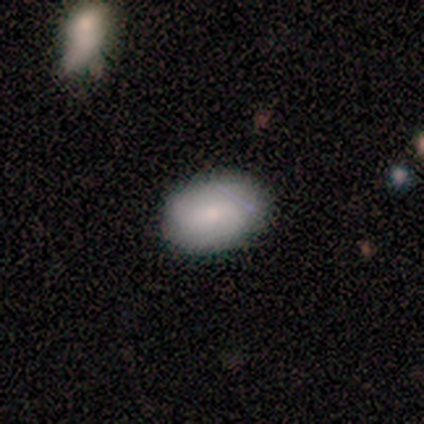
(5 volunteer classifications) smooth 80%, featured or disk 20%, star or artifact 0%. Down the decision tree: how rounded — in between (75%); merging — none (80%).